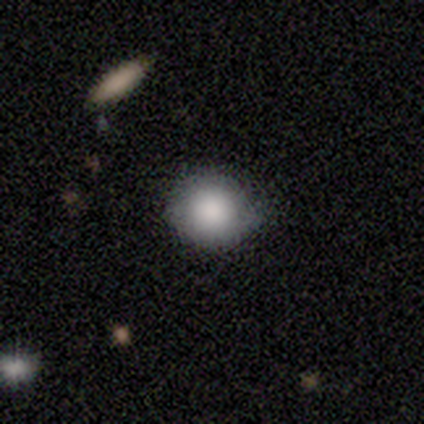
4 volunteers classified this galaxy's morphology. Q: Smooth or featured?
A: smooth (100%)
Q: How rounded?
A: round (100%)
Q: Merging?
A: none (100%)